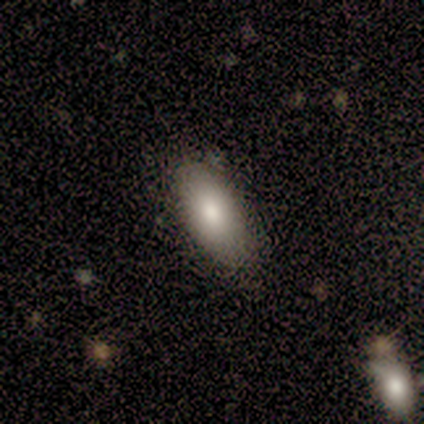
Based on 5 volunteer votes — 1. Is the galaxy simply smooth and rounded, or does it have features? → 60% featured or disk, 40% smooth, 0% star or artifact.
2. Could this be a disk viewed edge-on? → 67% no, 33% yes.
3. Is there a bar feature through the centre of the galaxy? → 100% no, 0% strong, 0% weak.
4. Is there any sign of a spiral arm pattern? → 100% no, 0% yes.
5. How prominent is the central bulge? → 50% moderate (tied), 50% small (tied), 0% dominant, 0% large, 0% none.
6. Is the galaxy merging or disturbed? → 80% none, 20% minor disturbance, 0% major disturbance, 0% merger.